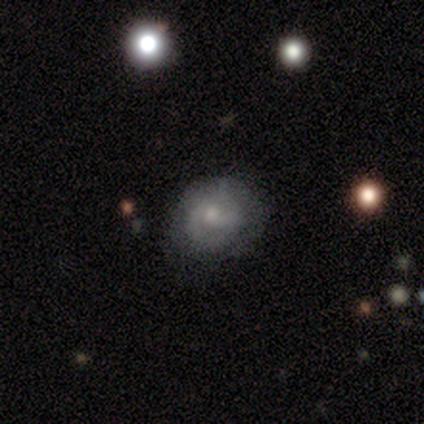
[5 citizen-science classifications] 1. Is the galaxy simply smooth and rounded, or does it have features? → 100% featured or disk, 0% smooth, 0% star or artifact.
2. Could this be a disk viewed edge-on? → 100% no, 0% yes.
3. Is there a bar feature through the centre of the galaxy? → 60% no, 40% weak, 0% strong.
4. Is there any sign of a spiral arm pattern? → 80% yes, 20% no.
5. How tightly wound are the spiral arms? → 75% tight, 25% loose, 0% medium.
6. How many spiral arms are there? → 50% 3, 25% 1, 25% 2, 0% 4, 0% more than 4, 0% can't tell.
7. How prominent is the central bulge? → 60% small, 40% moderate, 0% dominant, 0% large, 0% none.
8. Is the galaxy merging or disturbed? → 60% none, 40% minor disturbance, 0% major disturbance, 0% merger.